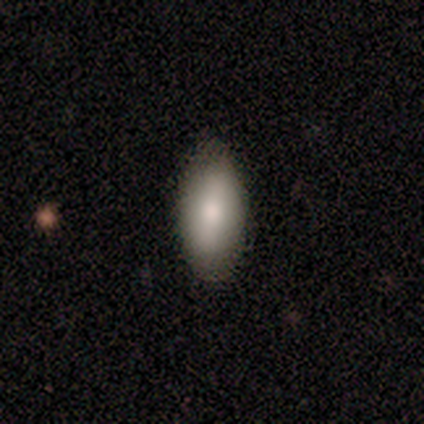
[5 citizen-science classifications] smooth_or_featured: smooth (p=0.60) [alt: featured or disk p=0.20]
how_rounded: in between (p=0.67) [alt: cigar-shaped p=0.33]
merging: none (p=0.75) [alt: minor disturbance p=0.25]